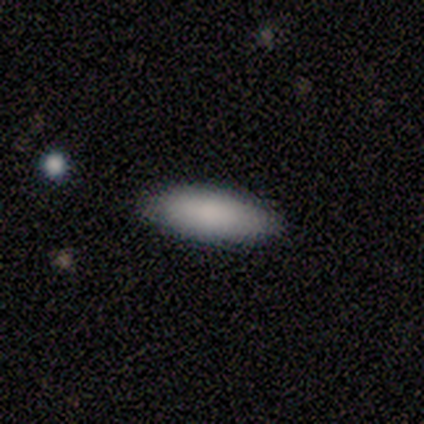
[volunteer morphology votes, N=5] This is clearly a smooth galaxy (80%). How rounded: clearly in between (100%). Merging: likely none (75%).